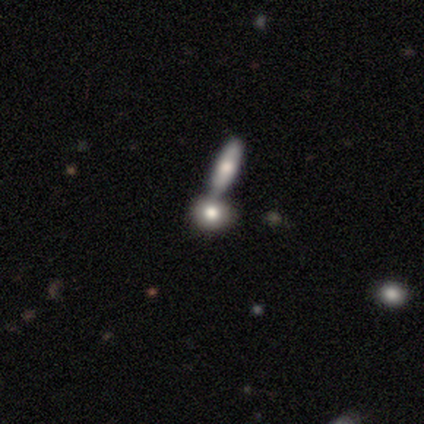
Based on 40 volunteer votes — This appears to be a smooth galaxy with no disk features (75%) that is round (57%). Merging: merger (62%).